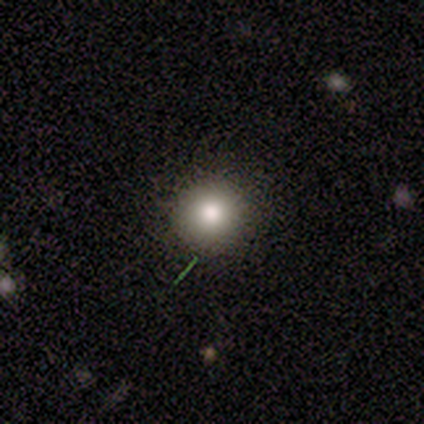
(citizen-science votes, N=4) Overall: smooth (75%). How rounded: round (100%). Merging: none (100%).